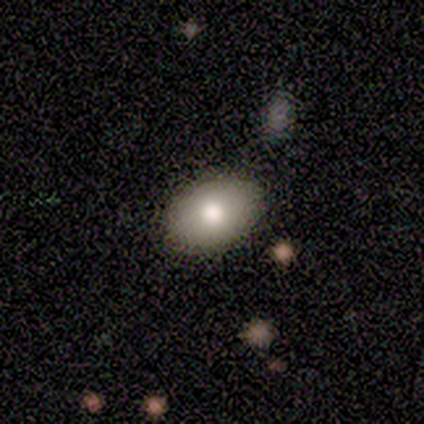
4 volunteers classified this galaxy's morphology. type=smooth (75%); roundness=in between (67%); merging=none (75%).